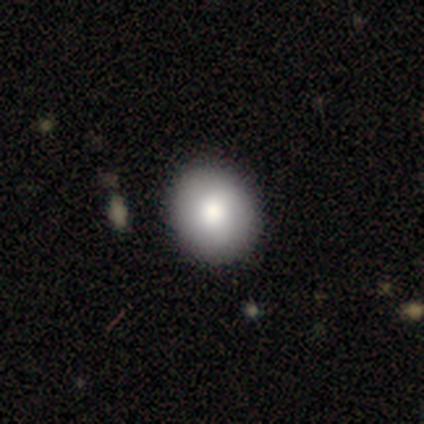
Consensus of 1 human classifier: This appears to be a smooth galaxy with no disk features (100%) that is round (100%). Merging: none (100%).